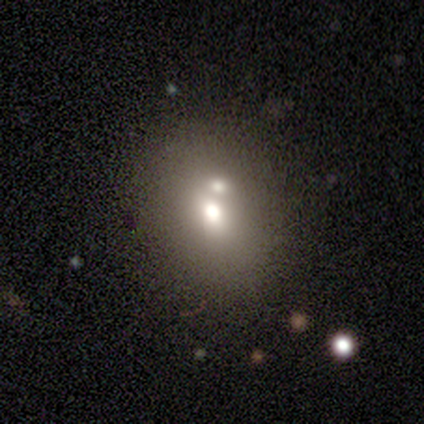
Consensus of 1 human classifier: Q: Smooth or featured?
A: featured or disk (100%)
Q: Edge-on disk?
A: no (100%)
Q: Bar?
A: no (100%)
Q: Spiral arms?
A: no (100%)
Q: Bulge size?
A: large (100%)
Q: Merging?
A: merger (100%)